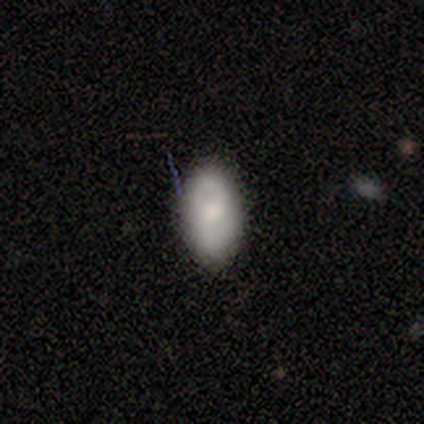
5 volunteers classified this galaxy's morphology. Overall: smooth (80%). How rounded: in between (100%). Merging: none (100%).